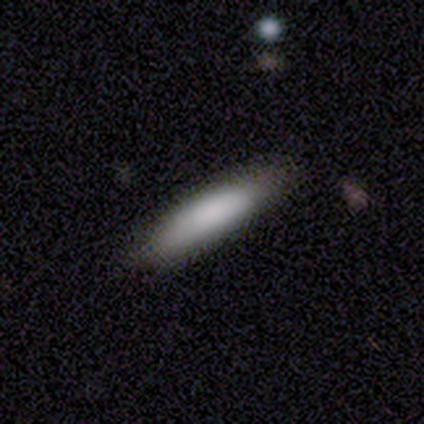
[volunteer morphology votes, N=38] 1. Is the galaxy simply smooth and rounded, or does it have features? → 87% smooth, 11% featured or disk, 3% star or artifact.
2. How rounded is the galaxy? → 70% cigar-shaped, 30% in between, 0% round.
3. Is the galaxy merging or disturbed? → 81% none, 16% minor disturbance, 3% major disturbance, 0% merger.